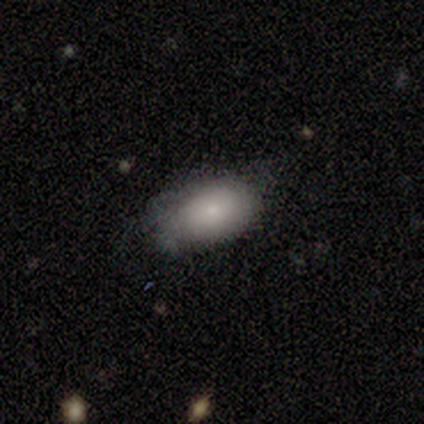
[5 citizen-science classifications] A smooth galaxy with no disk features (60%) that is in between round and cigar-shaped (100%).

Vote fractions:
- Smooth or featured? smooth: 60% / featured or disk: 40% / star or artifact: 0%
- How rounded? in between: 100% / round: 0% / cigar-shaped: 0%
- Merging? none: 60% / minor disturbance: 20% / merger: 20% / major disturbance: 0%